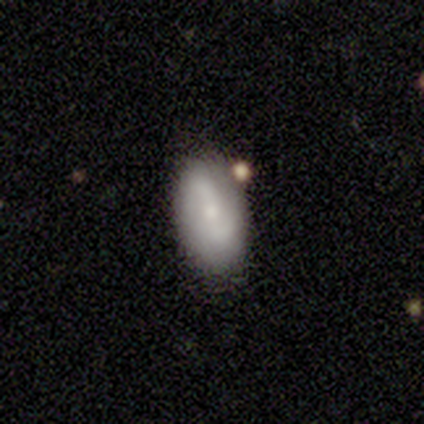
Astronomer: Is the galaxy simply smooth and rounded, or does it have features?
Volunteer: smooth — 40%, tied with featured or disk at 40%.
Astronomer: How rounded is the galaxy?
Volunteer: in between — 100%.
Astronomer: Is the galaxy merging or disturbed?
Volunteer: none — 100%.